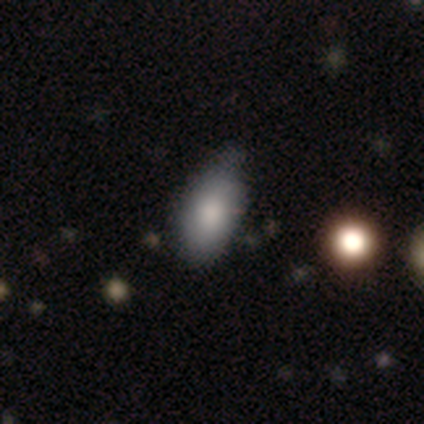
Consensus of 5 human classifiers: Smooth or featured?
  - smooth: 80% *
  - featured or disk: 20%
  - star or artifact: 0%
How rounded?
  - in between: 100% *
  - round: 0%
  - cigar-shaped: 0%
Merging?
  - minor disturbance: 100% *
  - none: 0%
  - major disturbance: 0%
  - merger: 0%